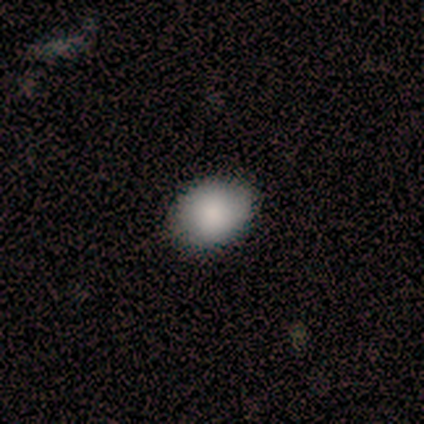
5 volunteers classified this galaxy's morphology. A smooth galaxy with no disk features (80%) that is round (75%).

Vote fractions:
- Smooth or featured? smooth: 80% / featured or disk: 20% / star or artifact: 0%
- How rounded? round: 75% / in between: 25% / cigar-shaped: 0%
- Merging? none: 100% / minor disturbance: 0% / major disturbance: 0% / merger: 0%